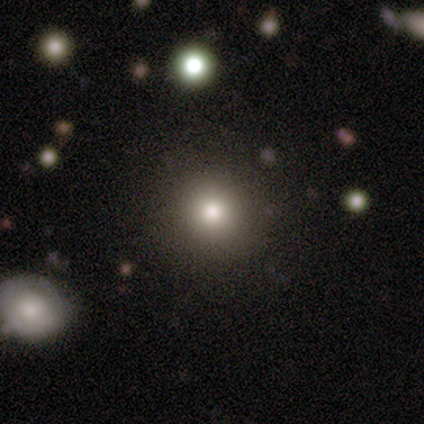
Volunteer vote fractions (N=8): This appears to be a smooth galaxy with no disk features (100%) that is round (100%). Merging: none (75%).